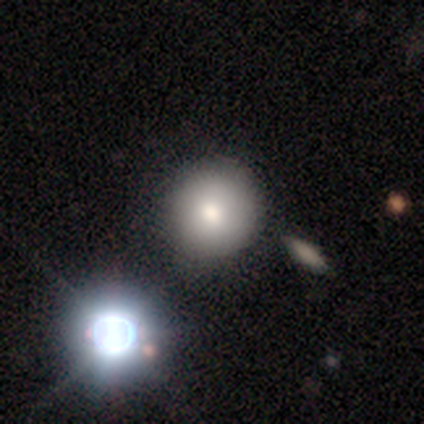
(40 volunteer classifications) A smooth galaxy with no disk features (65%) that is round (92%). Merging: none (86%).